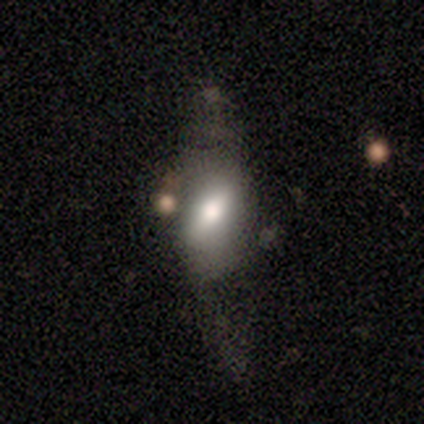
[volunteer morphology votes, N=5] Overall: smooth (60%; featured or disk 20%). How rounded: in between (100%). Merging: none (50%; minor disturbance 25%).